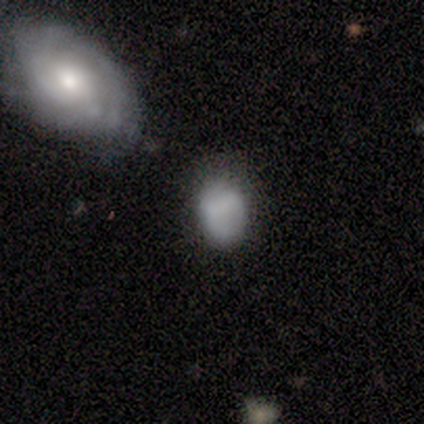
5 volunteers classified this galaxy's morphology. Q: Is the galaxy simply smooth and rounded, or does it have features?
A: smooth — 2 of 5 (40%, tied with star or artifact).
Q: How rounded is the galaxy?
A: round — 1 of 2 (50%, tied with in between).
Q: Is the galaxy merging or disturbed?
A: none — 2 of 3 (67%).